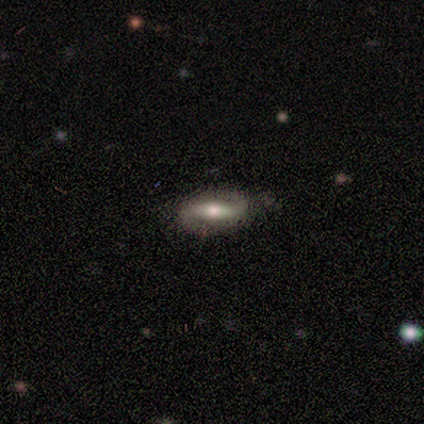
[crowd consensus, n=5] smooth_or_featured: smooth (p=0.60) [alt: featured or disk p=0.40]
how_rounded: in between (p=0.67) [alt: round p=0.33]
merging: none (p=0.80) [alt: minor disturbance p=0.20]